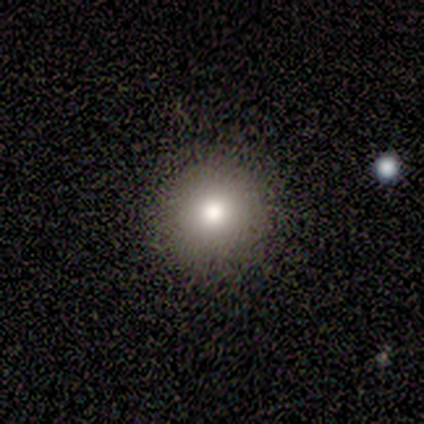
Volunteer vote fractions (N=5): Smooth or featured?
  - smooth: 100% *
  - featured or disk: 0%
  - star or artifact: 0%
How rounded?
  - round: 100% *
  - in between: 0%
  - cigar-shaped: 0%
Merging?
  - none: 80% *
  - minor disturbance: 20%
  - major disturbance: 0%
  - merger: 0%